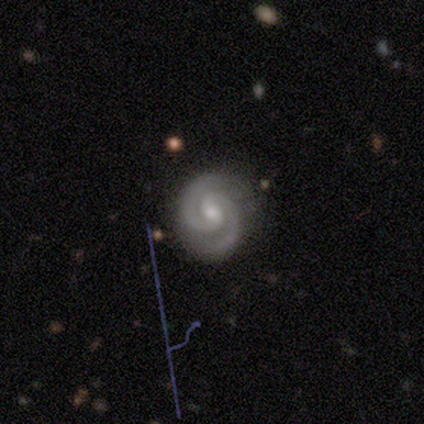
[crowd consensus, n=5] A featured or disk galaxy (100%) with a weak bar (60%), 2 (100%) tight (60%) spiral arms (100%) and a moderate central bulge (60%).

Vote fractions:
- Smooth or featured? featured or disk: 100% / smooth: 0% / star or artifact: 0%
- Edge-on disk? no: 100% / yes: 0%
- Bar? weak: 60% / no: 40% / strong: 0%
- Spiral arms? yes: 100% / no: 0%
- Spiral winding? tight: 60% / medium: 40% / loose: 0%
- Spiral arm count? 2: 100% / 1: 0% / 3: 0% / 4: 0% / more than 4: 0% / can't tell: 0%
- Bulge size? moderate: 60% / small: 40% / dominant: 0% / large: 0% / none: 0%
- Merging? none: 80% / minor disturbance: 20% / major disturbance: 0% / merger: 0%